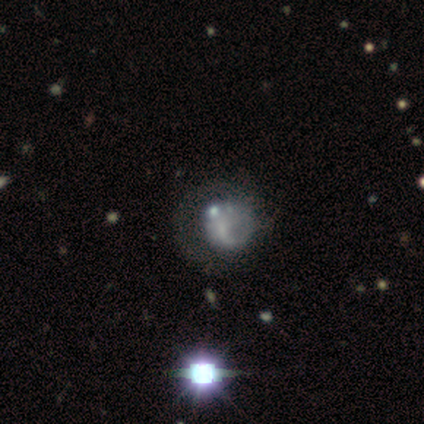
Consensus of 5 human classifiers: smooth-or-featured: featured or disk: 60% | star or artifact: 40% | smooth: 0%
  disk-edge-on: no: 100% | yes: 0%
    bar: no: 100% | strong: 0% | weak: 0%
    has-spiral-arms: yes: 67% | no: 33%
      spiral-winding: loose: 100% | tight: 0% | medium: 0%
      spiral-arm-count: 1: 50% (tied) | can't tell: 50% (tied) | 2: 0% | 3: 0% | 4: 0% | more than 4: 0%
    bulge-size: none: 67% | small: 33% | dominant: 0% | large: 0% | moderate: 0%
  merging: major disturbance: 67% | none: 33% | minor disturbance: 0% | merger: 0%